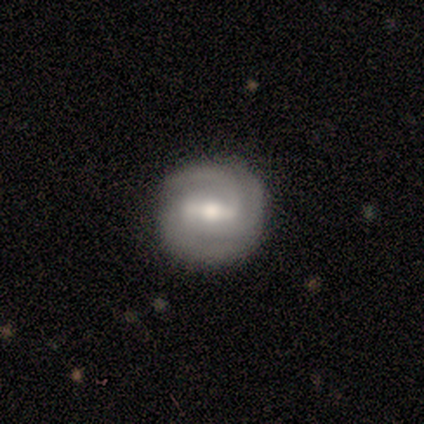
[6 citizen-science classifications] Q: Smooth or featured?
A: featured or disk (100%)
Q: Edge-on disk?
A: no (100%)
Q: Bar?
A: weak (67%); runner-up: strong (17%)
Q: Spiral arms?
A: yes (100%)
Q: Spiral winding?
A: tight (67%); runner-up: medium (33%)
Q: Spiral arm count?
A: 3 (67%); runner-up: 2 (17%)
Q: Bulge size?
A: moderate (67%); runner-up: small (33%)
Q: Merging?
A: none (83%); runner-up: minor disturbance (17%)